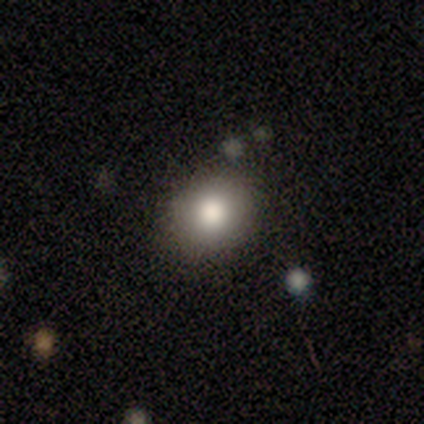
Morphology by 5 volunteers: Smooth or featured: smooth — 100%
How rounded: round — 60% (in between — 40%)
Merging: none — 80% (merger — 20%)